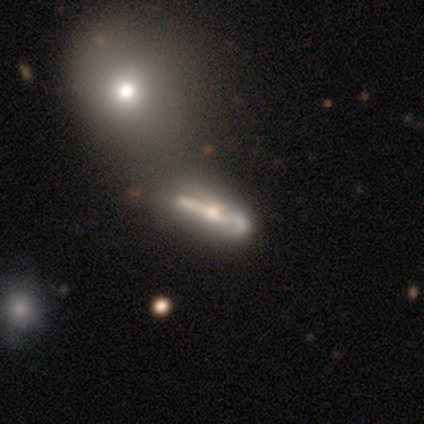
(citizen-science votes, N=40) A featured or disk galaxy (88%) viewed edge-on (69%) with a rounded central bulge (92%). Merging: none (24%).